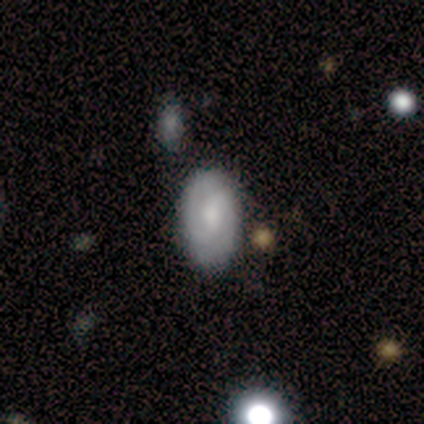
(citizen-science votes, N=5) smooth_or_featured: featured or disk (p=0.60) [alt: smooth p=0.40]
disk_edge_on: no (p=1.00)
bar: weak (p=0.67) [alt: no p=0.33]
has_spiral_arms: yes (p=1.00)
spiral_winding: medium (p=0.67) [alt: tight p=0.33]
spiral_arm_count: 2 (p=0.67) [alt: can't tell p=0.33]
bulge_size: large (p=0.33) [tied with: moderate p=0.33, small p=0.33]
merging: none (p=0.80) [alt: merger p=0.20]